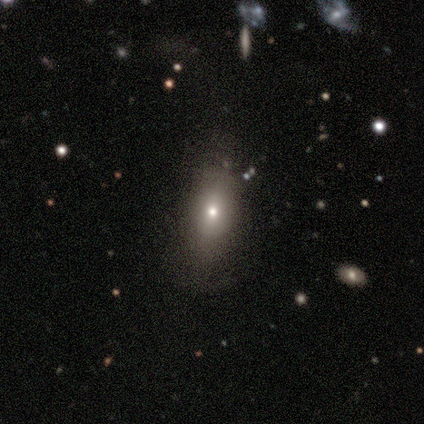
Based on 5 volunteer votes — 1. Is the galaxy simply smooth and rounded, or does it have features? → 60% smooth, 40% star or artifact, 0% featured or disk.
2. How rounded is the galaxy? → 100% in between, 0% round, 0% cigar-shaped.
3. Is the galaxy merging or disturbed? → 100% none, 0% minor disturbance, 0% major disturbance, 0% merger.